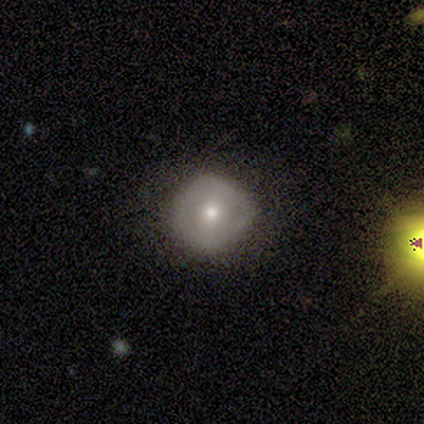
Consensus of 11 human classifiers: Volunteers were most divided on "smooth or featured": smooth: 45%, featured or disk: 36%, star or artifact: 18%. More confident: how rounded — round (100%); merging — none (89%).